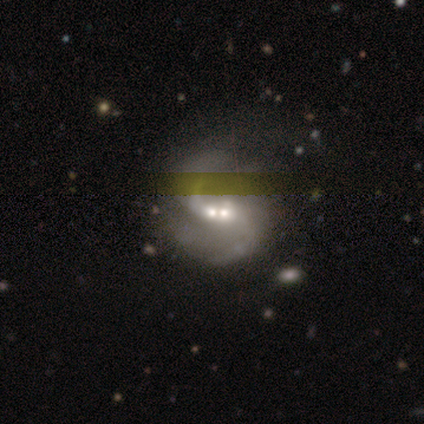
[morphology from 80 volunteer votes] Smooth or featured: featured or disk — 84% (smooth — 10%)
Edge-on disk: no — 93% (yes — 7%)
Bar: no — 66% (weak — 26%)
Spiral arms: yes — 89% (no — 11%)
Spiral winding: loose — 55% (medium — 35%)
Spiral arm count: 2 — 76% (can't tell — 13%)
Bulge size: moderate — 50% (small — 40%)
Merging: merger — 41% (none — 15%)